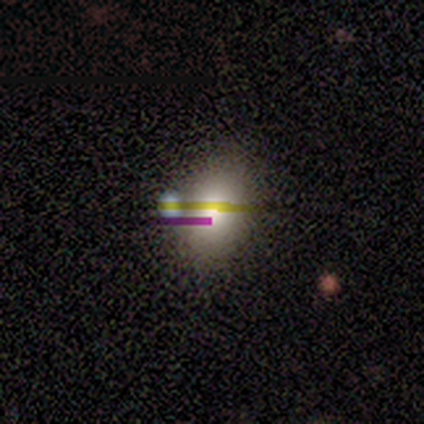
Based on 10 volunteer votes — Morphology: type=smooth (60%); roundness=in between (67%); merging=none (33%, tied with merger).